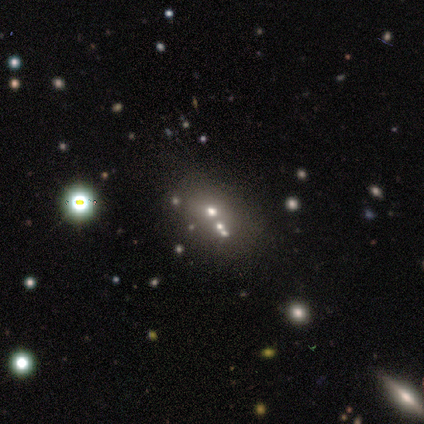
Morphology: type=smooth (100%); roundness=in between (67%); merging=none (67%).